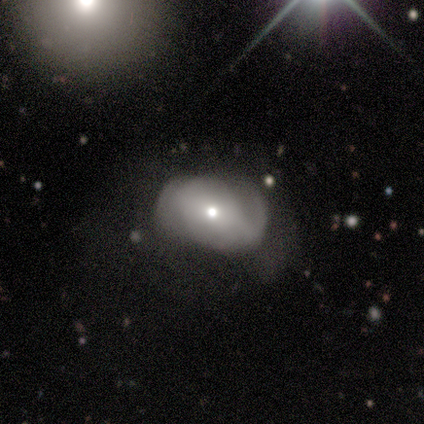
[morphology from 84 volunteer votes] Smooth or featured? 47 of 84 (56%) said featured or disk. Edge-on disk? 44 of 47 (94%) said no. Bar? 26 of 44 (59%) said no. Spiral arms? 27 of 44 (61%) said yes. Spiral winding? 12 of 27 (44%) said medium. Spiral arm count? 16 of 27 (59%) said 2. Bulge size? 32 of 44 (73%) said moderate. Merging? 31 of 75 (41%) said none.